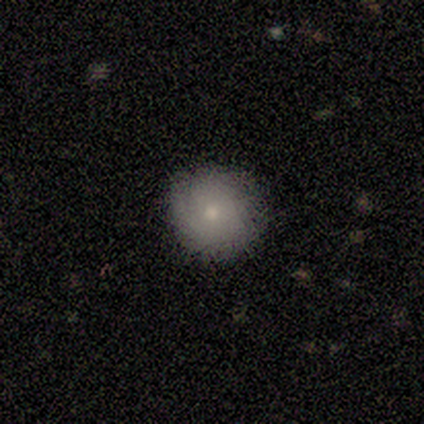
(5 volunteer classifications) Smooth or featured? smooth (80%)
How rounded? round (100%)
Merging? minor disturbance (60%)